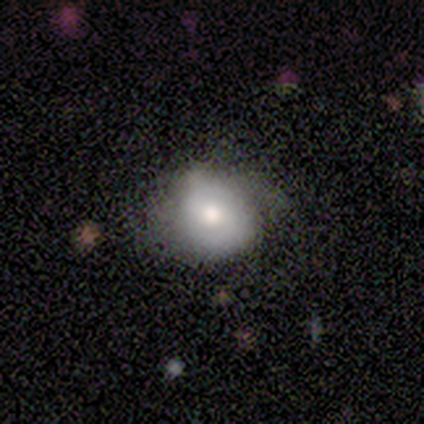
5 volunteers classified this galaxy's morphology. Volunteers were most divided on "merging" (2-way tie): none: 40%, minor disturbance: 40%, major disturbance: 20%, merger: 0%. More confident: bar — no (100%); spiral arms — no (100%); bulge size — moderate (100%); edge-on disk — no (67%); smooth or featured — featured or disk (60%).